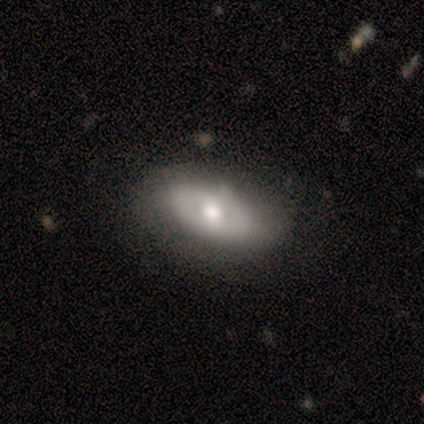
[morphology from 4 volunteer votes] smooth_or_featured: smooth (p=0.75) [alt: featured or disk p=0.25]
how_rounded: in between (p=1.00)
merging: none (p=0.75) [alt: minor disturbance p=0.25]